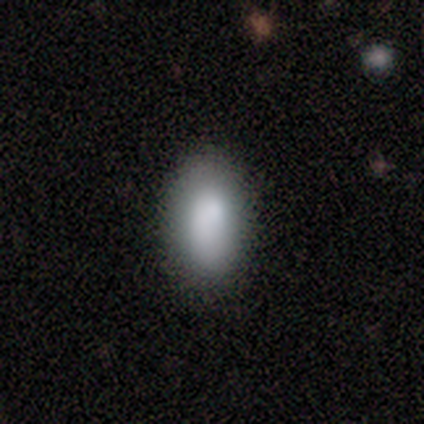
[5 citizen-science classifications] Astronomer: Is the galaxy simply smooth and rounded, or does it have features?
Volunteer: smooth — 80%.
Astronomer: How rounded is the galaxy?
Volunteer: in between — 100%.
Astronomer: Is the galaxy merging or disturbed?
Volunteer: none — 80%.